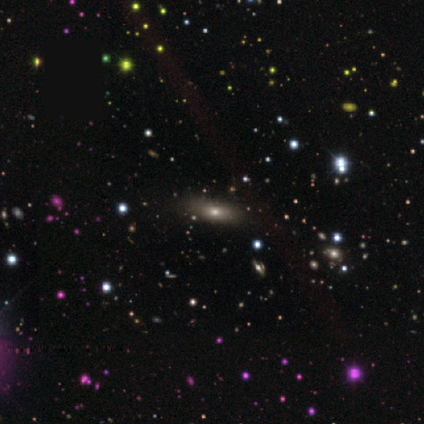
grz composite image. It shows a smooth galaxy with no disk features (100%) that is in between round and cigar-shaped (60%). Merging: none (100%).